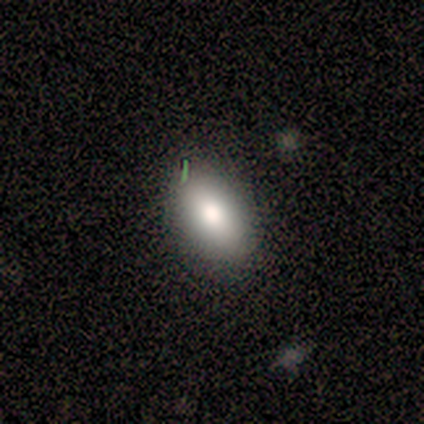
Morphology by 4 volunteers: Smooth or featured: smooth — 50% (tied with featured or disk — 50%)
How rounded: in between — 100%
Merging: none — 100%